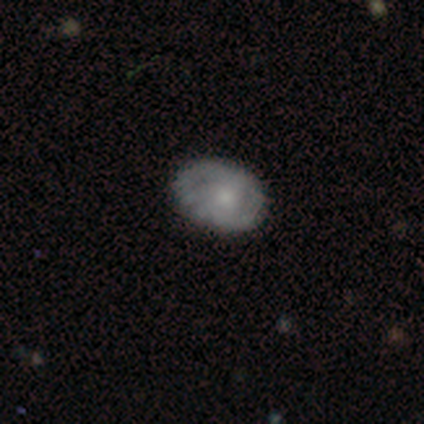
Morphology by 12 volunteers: Volunteers were most divided on "smooth or featured": smooth: 58%, star or artifact: 25%, featured or disk: 17%. More confident: how rounded — in between (100%); merging — none (89%).